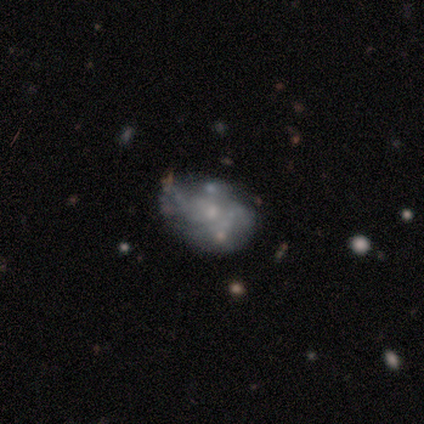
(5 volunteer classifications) A featured or disk galaxy (60%) with no bar (100%), no spiral arms (67%) and a small central bulge (67%).

Vote fractions:
- Smooth or featured? featured or disk: 60% / smooth: 40% / star or artifact: 0%
- Edge-on disk? no: 100% / yes: 0%
- Bar? no: 100% / strong: 0% / weak: 0%
- Spiral arms? no: 67% / yes: 33%
- Bulge size? small: 67% / none: 33% / dominant: 0% / large: 0% / moderate: 0%
- Merging? none: 40% (tied) / major disturbance: 40% (tied) / merger: 20% / minor disturbance: 0%